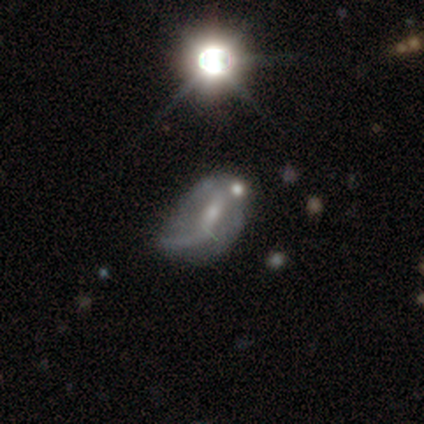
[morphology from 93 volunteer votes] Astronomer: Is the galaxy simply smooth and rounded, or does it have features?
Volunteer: featured or disk — 68%.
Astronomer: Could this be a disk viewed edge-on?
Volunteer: no — 95%.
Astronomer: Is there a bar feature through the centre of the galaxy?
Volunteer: weak — 48% (runner-up: no, 37%).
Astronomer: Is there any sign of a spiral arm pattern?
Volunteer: yes — 68%.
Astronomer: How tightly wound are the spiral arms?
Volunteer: loose — 76%.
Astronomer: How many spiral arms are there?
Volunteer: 1 — 61%.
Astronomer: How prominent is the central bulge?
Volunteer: small — 62%.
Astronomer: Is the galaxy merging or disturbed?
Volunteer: minor disturbance — 44% (runner-up: major disturbance, 28%).